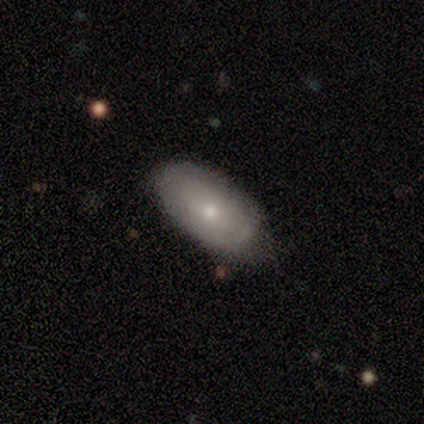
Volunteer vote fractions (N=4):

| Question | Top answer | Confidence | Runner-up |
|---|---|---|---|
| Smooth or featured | featured or disk | 75% | smooth (25%) |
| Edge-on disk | no | 100% | — |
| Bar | no | 100% | — |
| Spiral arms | no | 100% | — |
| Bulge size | small | 100% | — |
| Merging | none | 75% | minor disturbance (25%) |